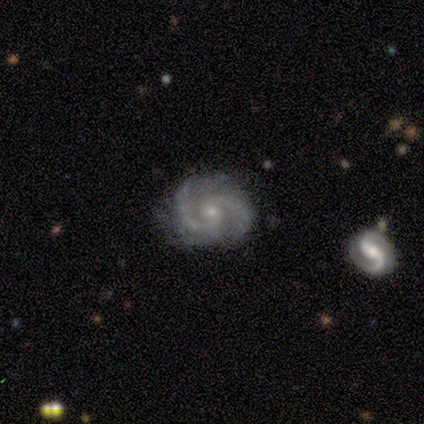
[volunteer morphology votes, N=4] featured or disk 100%, smooth 0%, star or artifact 0%. Down the decision tree: edge-on disk — no (100%); bar — no (75%); spiral arms — yes (100%); spiral arm count — 2 (50%); spiral winding — tight (50%, tied with medium); bulge size — small (100%); merging — none (100%).